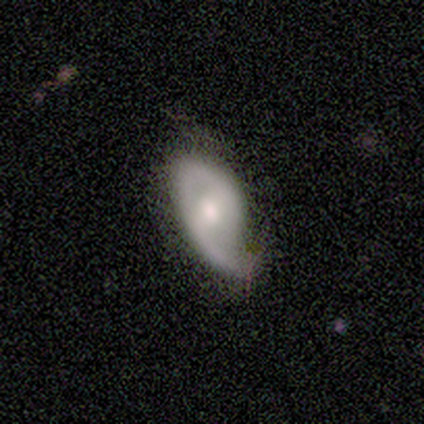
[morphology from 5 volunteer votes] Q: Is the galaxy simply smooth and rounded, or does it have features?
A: featured or disk — 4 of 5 (80%).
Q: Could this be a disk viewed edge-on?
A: no — 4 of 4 (100%).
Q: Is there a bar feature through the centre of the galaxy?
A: no — 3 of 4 (75%).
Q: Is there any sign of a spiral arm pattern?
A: yes — 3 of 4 (75%).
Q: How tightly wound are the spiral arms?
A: tight — 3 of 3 (100%).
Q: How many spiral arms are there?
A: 1 — 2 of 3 (67%).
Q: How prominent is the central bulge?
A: small — 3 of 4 (75%).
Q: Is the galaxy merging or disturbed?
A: none — 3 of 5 (60%).